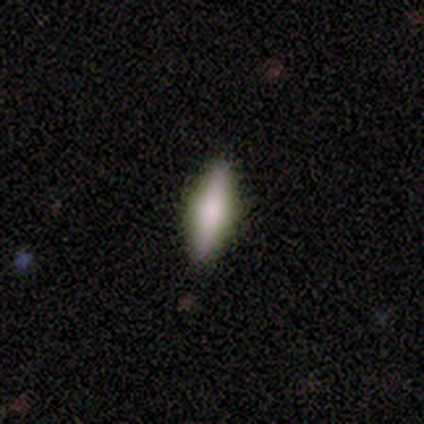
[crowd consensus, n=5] Overall: smooth (80%). How rounded: in between (50%, tied with cigar-shaped). Merging: none (100%).